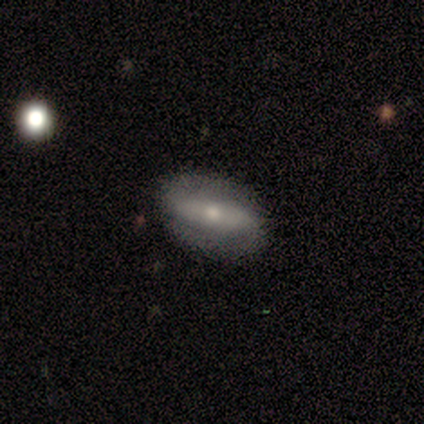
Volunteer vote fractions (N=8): smooth_or_featured: featured or disk (p=0.88) [alt: smooth p=0.12]
disk_edge_on: no (p=0.86) [alt: yes p=0.14]
bar: strong (p=0.50) [alt: no p=0.33]
has_spiral_arms: yes (p=0.83) [alt: no p=0.17]
spiral_winding: medium (p=0.80) [alt: tight p=0.20]
spiral_arm_count: 2 (p=1.00)
bulge_size: small (p=0.67) [alt: moderate p=0.33]
merging: none (p=0.88) [alt: minor disturbance p=0.12]